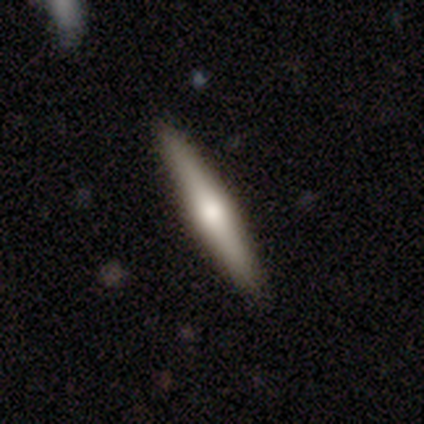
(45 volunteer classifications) This is possibly a smooth galaxy (56%). How rounded: clearly cigar-shaped (96%). Merging: clearly none (95%).